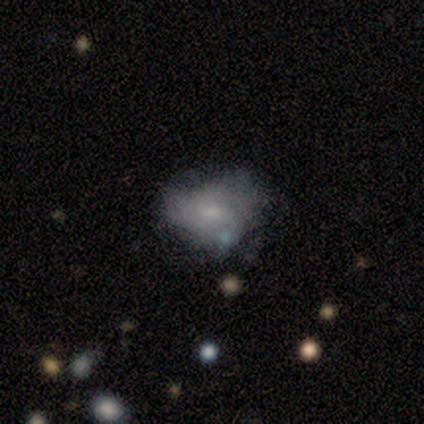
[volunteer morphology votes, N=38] smooth-or-featured: featured or disk: 50% | smooth: 39% | star or artifact: 11%
  disk-edge-on: no: 95% | yes: 5%
    bar: no: 67% | weak: 28% | strong: 6%
    has-spiral-arms: no: 78% | yes: 22%
    bulge-size: small: 56% | none: 28% | moderate: 11% | large: 6% | dominant: 0%
  merging: minor disturbance: 41% | none: 35% | major disturbance: 21% | merger: 3%